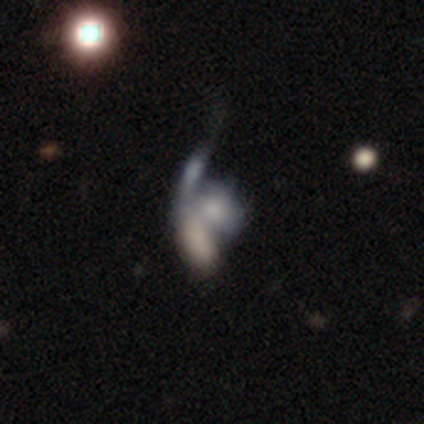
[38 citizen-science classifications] Morphology: type=featured or disk (53%); edge-on=no (95%); bar=no (95%); spiral arms=no (84%); bulge=none (58%); merging=merger (66%).